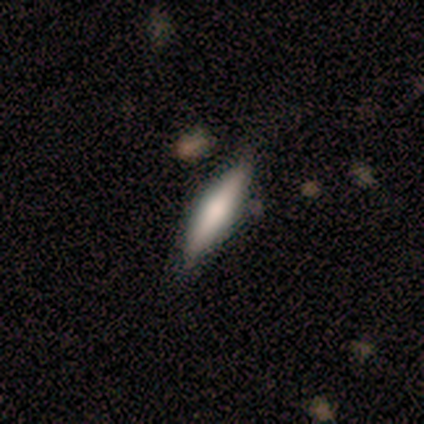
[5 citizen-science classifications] Overall: smooth (80%). How rounded: cigar-shaped (100%). Merging: none (80%).